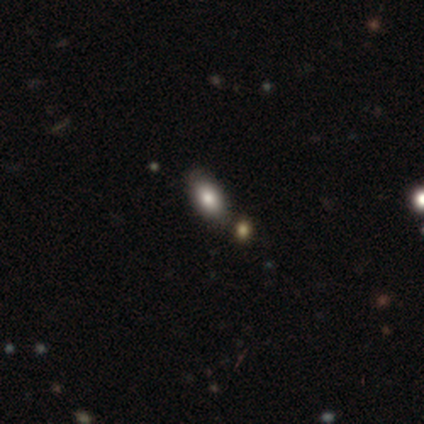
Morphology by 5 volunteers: Smooth or featured: smooth — 60% (featured or disk — 40%)
How rounded: in between — 100%
Merging: none — 80% (minor disturbance — 20%)